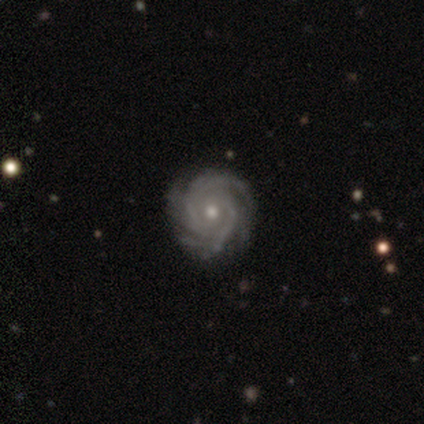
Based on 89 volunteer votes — Morphology: type=featured or disk (90%); edge-on=no (98%); bar=no (76%); spiral arms=yes (100%); winding=tight (83%); arm count=3 (29%); bulge=moderate (58%); merging=none (85%).